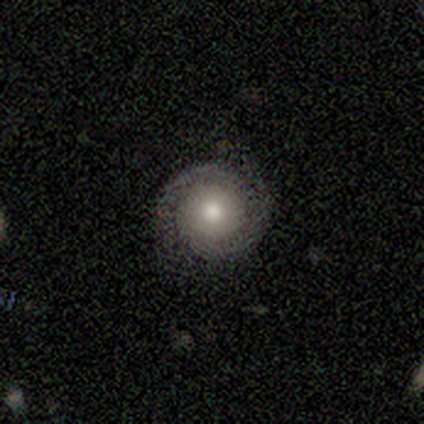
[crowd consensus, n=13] Overall: featured or disk (85%). Edge-on disk: no (100%). Bar: no (82%). Spiral arms: yes (100%). Spiral arm count: 2 (100%). Spiral winding: tight (73%). Bulge size: moderate (55%; small 27%). Merging: none (100%).